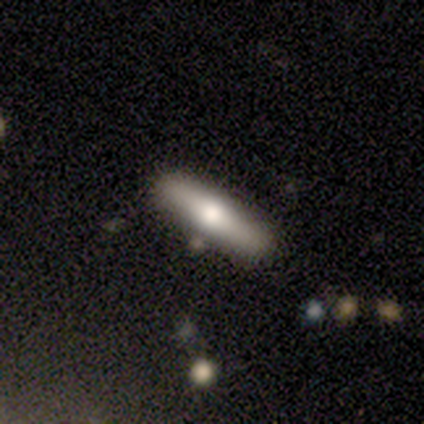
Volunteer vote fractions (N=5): Smooth or featured? 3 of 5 (60%) said smooth. How rounded? 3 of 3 (100%) said cigar-shaped. Merging? 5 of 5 (100%) said none.